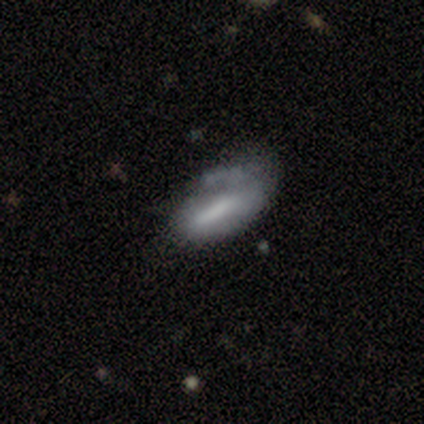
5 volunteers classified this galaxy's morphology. Smooth or featured: featured or disk — 60% (smooth — 40%)
Edge-on disk: no — 100%
Bar: strong — 67% (no — 33%)
Spiral arms: no — 100%
Bulge size: large — 67% (none — 33%)
Merging: minor disturbance — 40% (tied with major disturbance — 40%)